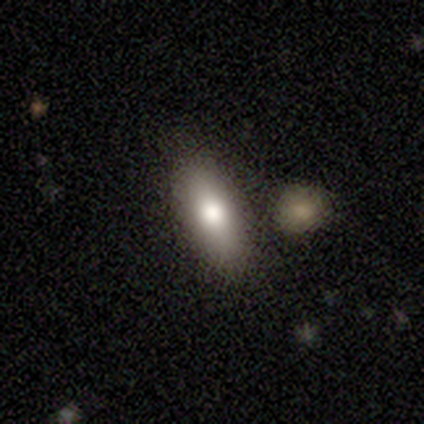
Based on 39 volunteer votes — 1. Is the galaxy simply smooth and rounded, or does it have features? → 69% smooth, 23% featured or disk, 8% star or artifact.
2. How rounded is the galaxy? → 63% in between, 37% cigar-shaped, 0% round.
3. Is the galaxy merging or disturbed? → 72% none, 19% minor disturbance, 6% merger, 3% major disturbance.